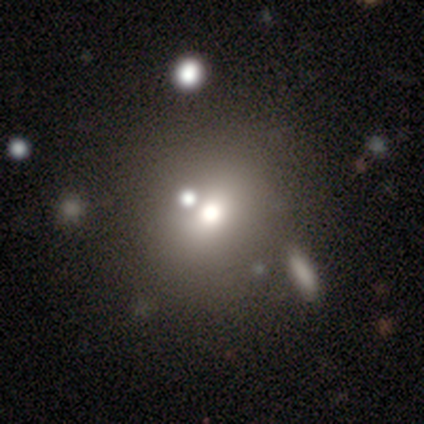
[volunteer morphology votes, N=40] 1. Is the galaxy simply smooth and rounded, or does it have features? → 52% smooth, 30% star or artifact, 18% featured or disk.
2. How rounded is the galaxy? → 86% round, 10% in between, 5% cigar-shaped.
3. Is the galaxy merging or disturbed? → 71% none, 14% merger, 7% minor disturbance, 7% major disturbance.